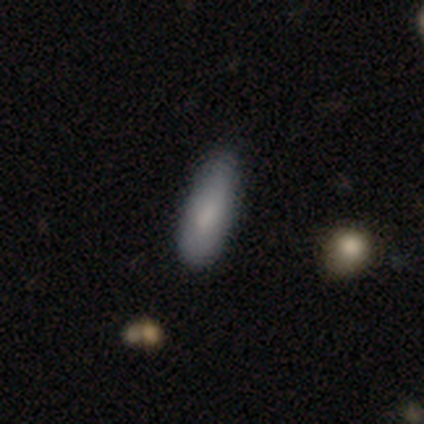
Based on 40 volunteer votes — A smooth galaxy with no disk features (85%) that is cigar-shaped (56%). Merging: none (73%).